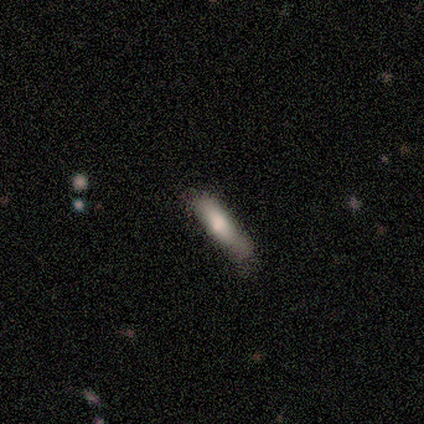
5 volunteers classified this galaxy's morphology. Smooth or featured? smooth (60%)
How rounded? cigar-shaped (100%)
Merging? none (80%)